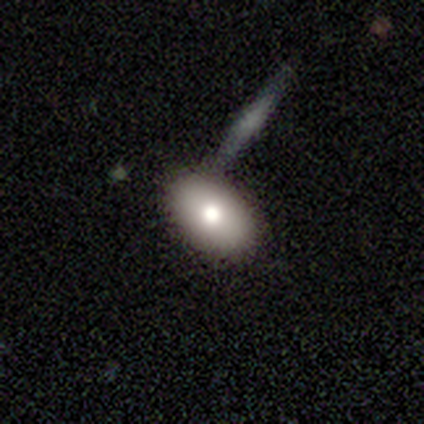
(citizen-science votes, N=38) Morphology: type=smooth (79%); roundness=in between (93%); merging=none (53%).